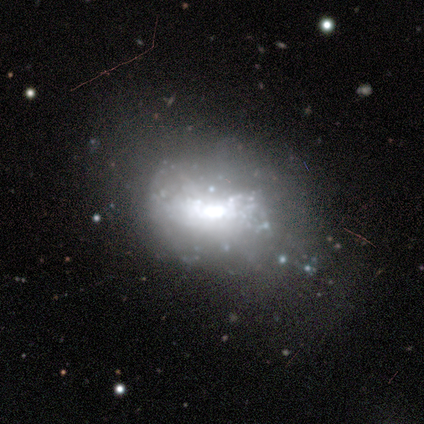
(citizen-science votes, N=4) Smooth or featured: featured or disk — 50% (tied with star or artifact — 50%)
Edge-on disk: no — 100%
Bar: no — 100%
Spiral arms: no — 100%
Bulge size: large — 50% (tied with moderate — 50%)
Merging: major disturbance — 100%